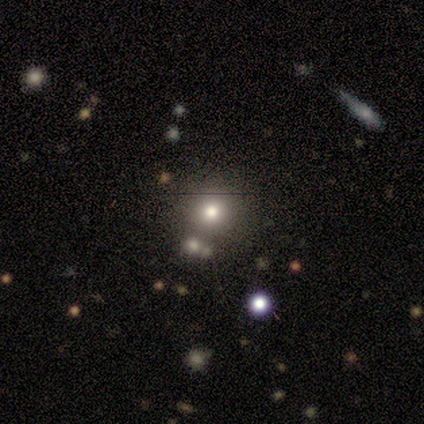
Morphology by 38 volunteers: A smooth galaxy with no disk features (71%) that is round (93%).

Vote fractions:
- Smooth or featured? smooth: 71% / star or artifact: 21% / featured or disk: 8%
- How rounded? round: 93% / in between: 7% / cigar-shaped: 0%
- Merging? none: 87% / major disturbance: 7% / minor disturbance: 3% / merger: 3%